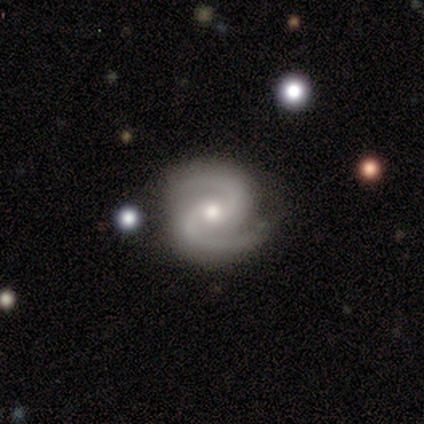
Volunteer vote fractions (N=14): Smooth or featured?
  - featured or disk: 93% *
  - star or artifact: 7%
  - smooth: 0%
Edge-on disk?
  - no: 100% *
  - yes: 0%
Bar?
  - no: 62% *
  - weak: 23%
  - strong: 15%
Spiral arms?
  - yes: 100% *
  - no: 0%
Spiral winding?
  - medium: 85% *
  - tight: 8%
  - loose: 8%
Spiral arm count?
  - 2: 100% *
  - 1: 0%
  - 3: 0%
  - 4: 0%
  - more than 4: 0%
  - can't tell: 0%
Bulge size?
  - moderate: 77% *
  - small: 23%
  - dominant: 0%
  - large: 0%
  - none: 0%
Merging?
  - none: 100% *
  - minor disturbance: 0%
  - major disturbance: 0%
  - merger: 0%